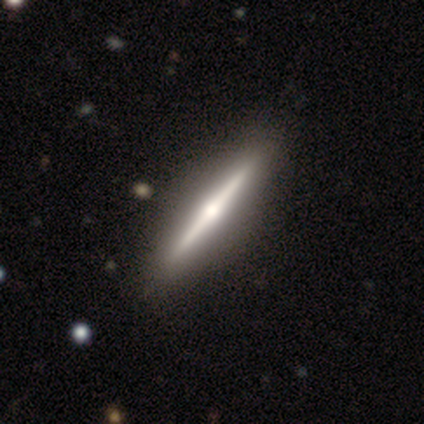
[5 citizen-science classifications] Q: Smooth or featured?
A: featured or disk (80%); runner-up: smooth (20%)
Q: Edge-on disk?
A: yes (100%)
Q: Edge-on bulge?
A: rounded (100%)
Q: Merging?
A: none (100%)